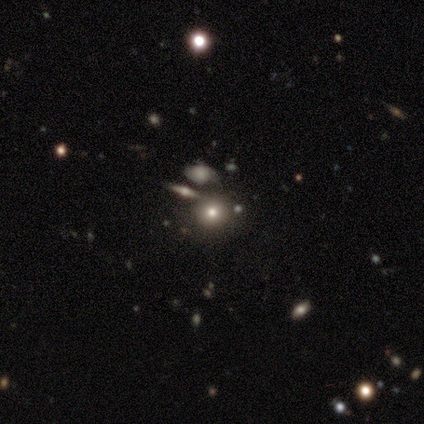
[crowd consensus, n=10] Morphology: type=smooth (80%); roundness=round (88%); merging=none (67%).